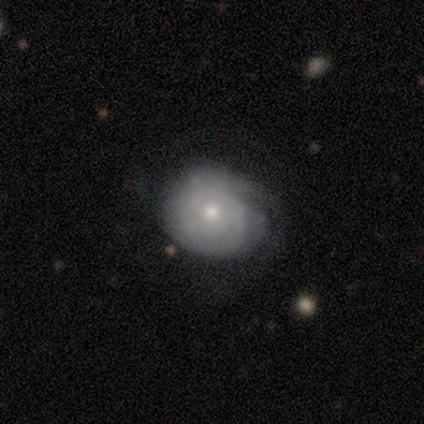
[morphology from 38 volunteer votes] Smooth or featured? 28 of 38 (74%) said featured or disk. Edge-on disk? 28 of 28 (100%) said no. Bar? 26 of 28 (93%) said no. Spiral arms? 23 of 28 (82%) said yes. Spiral winding? 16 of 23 (70%) said tight. Spiral arm count? 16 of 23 (70%) said can't tell. Bulge size? 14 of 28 (50%) said moderate. Merging? 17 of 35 (49%) said none.